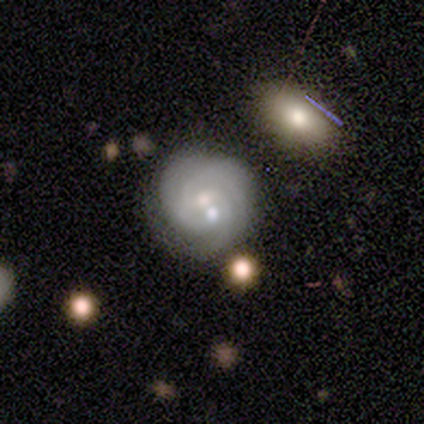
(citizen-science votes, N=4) featured or disk 75%, smooth 25%, star or artifact 0%. Down the decision tree: edge-on disk — no (100%); bar — weak (67%); spiral arms — yes (100%); spiral arm count — can't tell (67%); spiral winding — tight (100%); bulge size — small (67%); merging — none (50%).